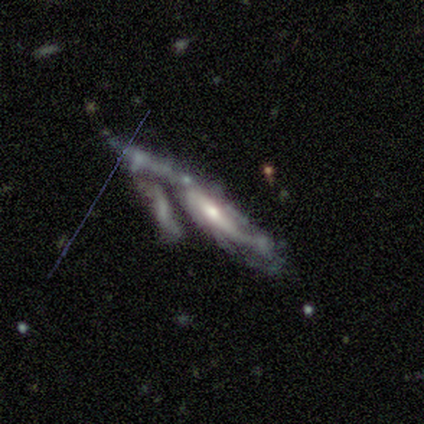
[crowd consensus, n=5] Morphology: type=featured or disk (40%, tied with star or artifact); edge-on=no (100%); bar=weak (50%, tied with no); spiral arms=yes (50%, tied with no); winding=loose (100%); arm count=2 (100%); bulge=small (100%); merging=major disturbance (67%).